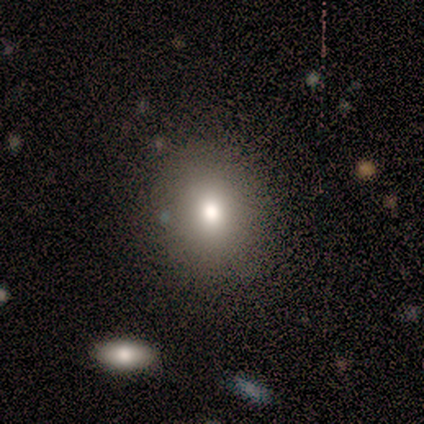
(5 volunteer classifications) Smooth or featured: featured or disk — 40% (tied with star or artifact — 40%)
Edge-on disk: no — 100%
Bar: no — 100%
Spiral arms: no — 100%
Bulge size: moderate — 100%
Merging: none — 100%